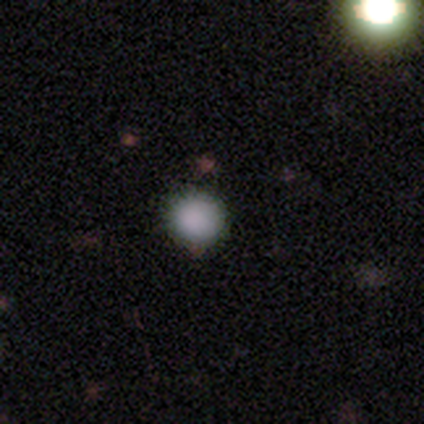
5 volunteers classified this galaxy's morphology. smooth-or-featured: smooth: 80% | star or artifact: 20% | featured or disk: 0%
  how-rounded: round: 100% | in between: 0% | cigar-shaped: 0%
  merging: none: 100% | minor disturbance: 0% | major disturbance: 0% | merger: 0%